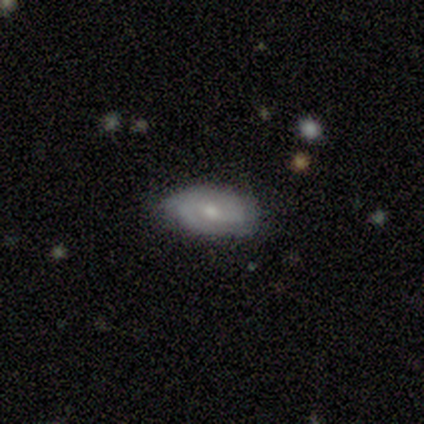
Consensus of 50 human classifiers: Overall: featured or disk (68%). Edge-on disk: no (100%). Bar: no (53%; weak 44%). Spiral arms: yes (85%). Spiral arm count: 2 (66%; can't tell 28%). Spiral winding: tight (55%; medium 34%). Bulge size: moderate (56%; small 44%). Merging: none (66%; minor disturbance 30%).